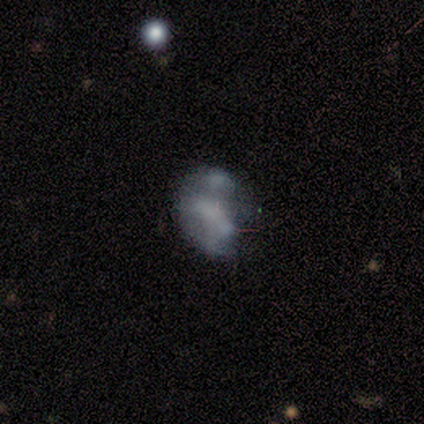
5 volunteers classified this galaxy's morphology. Volunteers were most divided on "bulge size" (2-way tie): small: 50%, none: 50%, dominant: 0%, large: 0%, moderate: 0%; "merging" (3-way tie): none: 33%, minor disturbance: 33%, merger: 33%, major disturbance: 0%. More confident: bar — no (100%); spiral arms — no (100%); edge-on disk — no (67%); smooth or featured — featured or disk (60%).